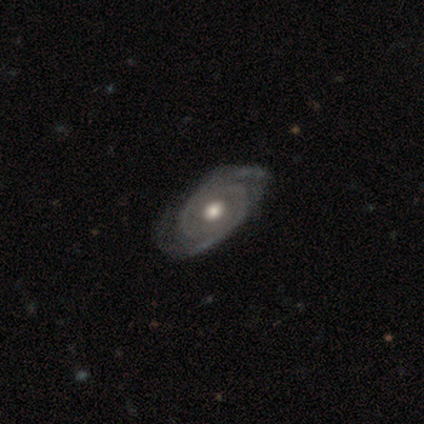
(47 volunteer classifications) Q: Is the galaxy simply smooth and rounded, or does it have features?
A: featured or disk — 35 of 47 (74%).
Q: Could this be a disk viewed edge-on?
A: no — 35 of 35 (100%).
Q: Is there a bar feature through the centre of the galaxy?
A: no — 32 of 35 (91%).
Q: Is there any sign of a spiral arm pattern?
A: yes — 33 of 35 (94%).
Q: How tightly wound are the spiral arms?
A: tight — 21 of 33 (64%).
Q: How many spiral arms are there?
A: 2 — 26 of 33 (79%).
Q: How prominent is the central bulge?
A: moderate — 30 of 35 (86%).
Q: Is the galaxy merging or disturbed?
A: none — 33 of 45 (73%).